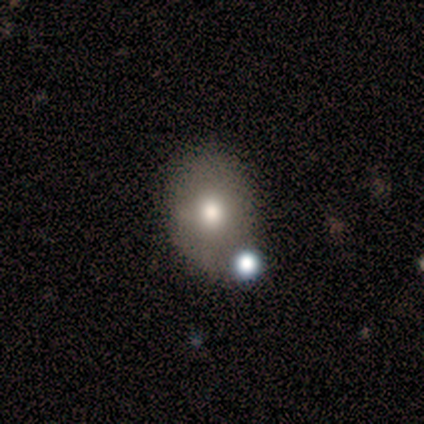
A smooth galaxy with no disk features (100%) that is in between round and cigar-shaped (60%).

Vote fractions:
- Smooth or featured? smooth: 100% / featured or disk: 0% / star or artifact: 0%
- How rounded? in between: 60% / round: 40% / cigar-shaped: 0%
- Merging? none: 60% / minor disturbance: 40% / major disturbance: 0% / merger: 0%